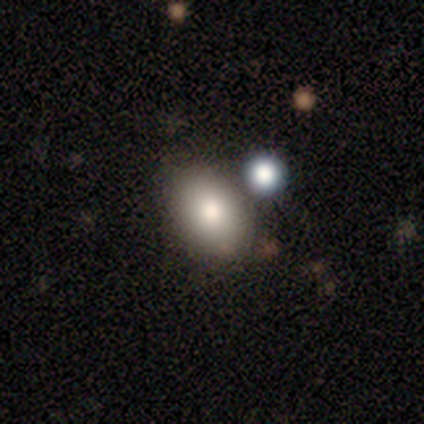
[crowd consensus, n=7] A smooth galaxy with no disk features (86%) that is in between round and cigar-shaped (83%). Merging: none (86%).